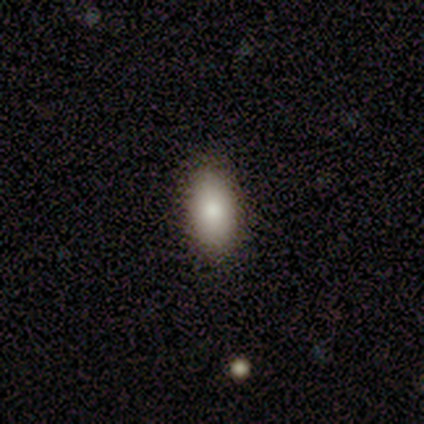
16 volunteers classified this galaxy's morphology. Smooth or featured?
  - smooth: 94% *
  - star or artifact: 6%
  - featured or disk: 0%
How rounded?
  - in between: 93% *
  - cigar-shaped: 7%
  - round: 0%
Merging?
  - none: 87% *
  - minor disturbance: 13%
  - major disturbance: 0%
  - merger: 0%